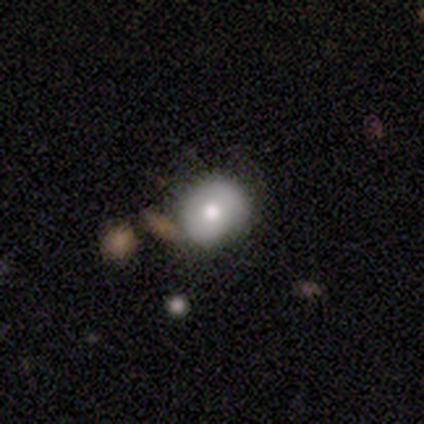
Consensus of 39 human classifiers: This appears to be a smooth galaxy with no disk features (49%) that is round (84%). Merging: none (65%).